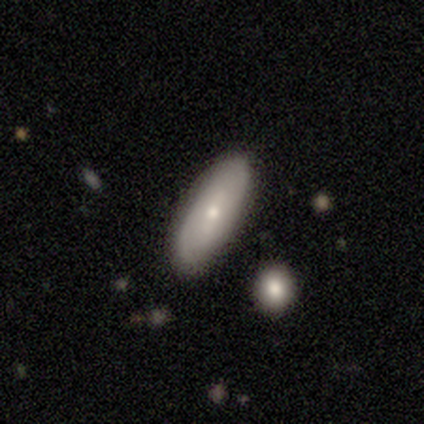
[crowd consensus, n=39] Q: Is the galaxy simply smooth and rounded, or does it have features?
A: smooth — 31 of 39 (79%).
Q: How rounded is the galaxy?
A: in between — 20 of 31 (65%).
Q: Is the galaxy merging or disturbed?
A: none — 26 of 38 (68%).